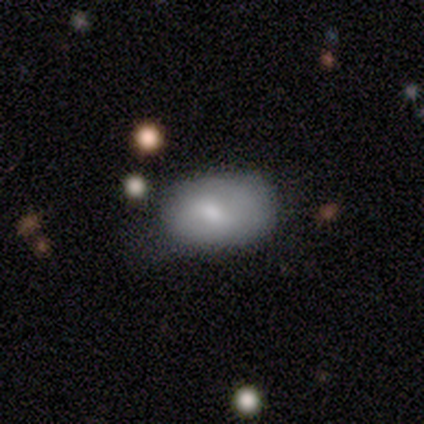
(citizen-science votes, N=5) smooth 60%, featured or disk 40%, star or artifact 0%. Down the decision tree: how rounded — in between (67%); merging — none (40%, tied with major disturbance).